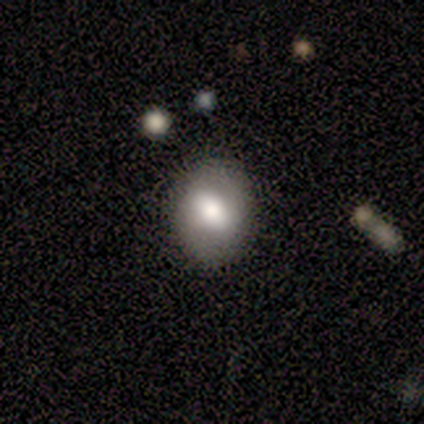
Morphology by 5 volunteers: Overall: featured or disk (60%; smooth 40%). Edge-on disk: no (67%; yes 33%). Bar: strong (50%, tied with weak). Spiral arms: yes (50%, tied with no). Spiral arm count: 2 (100%). Spiral winding: medium (100%). Bulge size: dominant (50%, tied with moderate). Merging: none (80%).